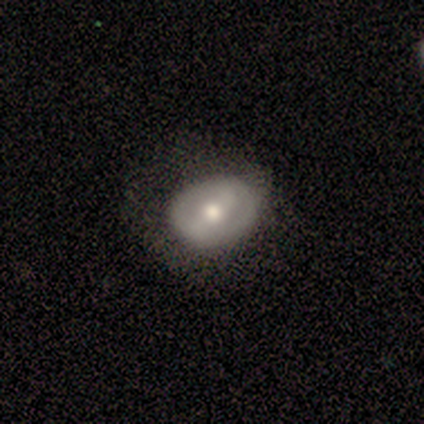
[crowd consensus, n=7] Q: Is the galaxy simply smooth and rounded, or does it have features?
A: featured or disk — 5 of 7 (71%).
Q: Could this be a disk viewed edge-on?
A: no — 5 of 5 (100%).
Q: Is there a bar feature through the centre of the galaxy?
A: weak — 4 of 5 (80%).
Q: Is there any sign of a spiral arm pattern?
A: no — 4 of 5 (80%).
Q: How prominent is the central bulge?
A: moderate — 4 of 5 (80%).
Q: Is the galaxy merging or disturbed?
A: none — 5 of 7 (71%).